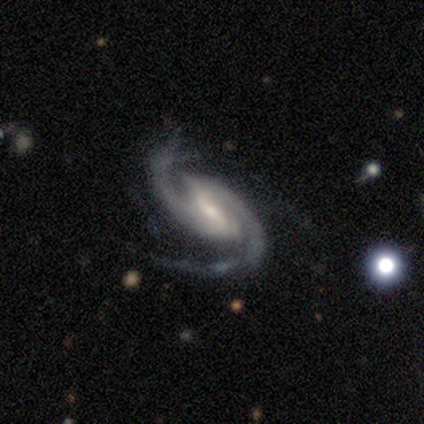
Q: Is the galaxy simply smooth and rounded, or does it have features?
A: featured or disk — 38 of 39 (97%).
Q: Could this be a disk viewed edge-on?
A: no — 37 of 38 (97%).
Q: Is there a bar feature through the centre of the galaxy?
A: strong — 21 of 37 (57%).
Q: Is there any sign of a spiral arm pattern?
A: yes — 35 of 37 (95%).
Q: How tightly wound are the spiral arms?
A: medium — 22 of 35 (63%).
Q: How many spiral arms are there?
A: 2 — 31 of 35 (89%).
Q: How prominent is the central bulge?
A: small — 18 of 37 (49%).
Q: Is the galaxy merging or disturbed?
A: none — 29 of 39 (74%).